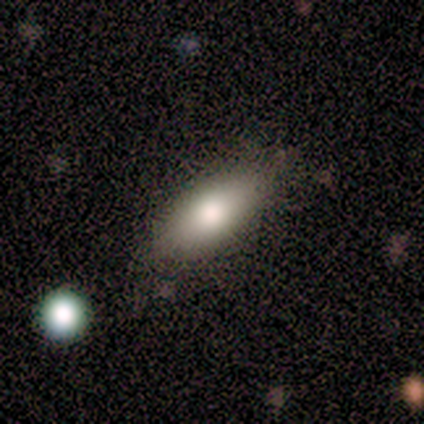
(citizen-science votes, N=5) Smooth or featured?
  - smooth: 100% *
  - featured or disk: 0%
  - star or artifact: 0%
How rounded?
  - in between: 100% *
  - round: 0%
  - cigar-shaped: 0%
Merging?
  - none: 100% *
  - minor disturbance: 0%
  - major disturbance: 0%
  - merger: 0%